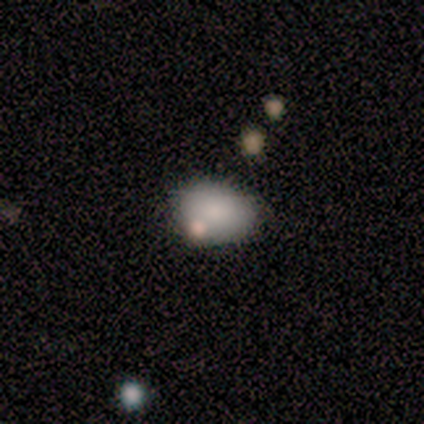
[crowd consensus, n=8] Morphology: type=smooth (62%); roundness=in between (100%); merging=none (75%).